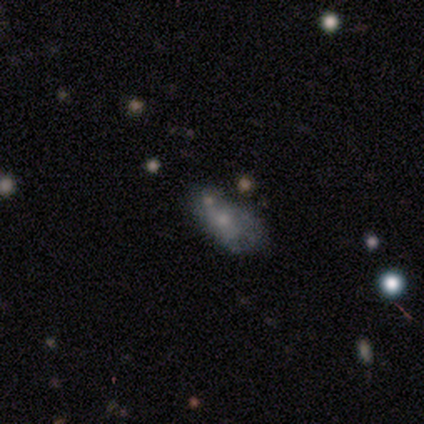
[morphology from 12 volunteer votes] This appears to be a featured or disk galaxy (50%) with no bar (67%), no spiral arms (67%) and a moderate central bulge (50%). Merging: none (45%).